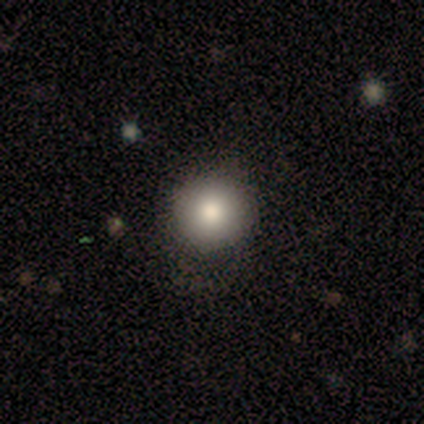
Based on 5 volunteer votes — A smooth galaxy with no disk features (100%) that is round (100%).

Vote fractions:
- Smooth or featured? smooth: 100% / featured or disk: 0% / star or artifact: 0%
- How rounded? round: 100% / in between: 0% / cigar-shaped: 0%
- Merging? none: 100% / minor disturbance: 0% / major disturbance: 0% / merger: 0%